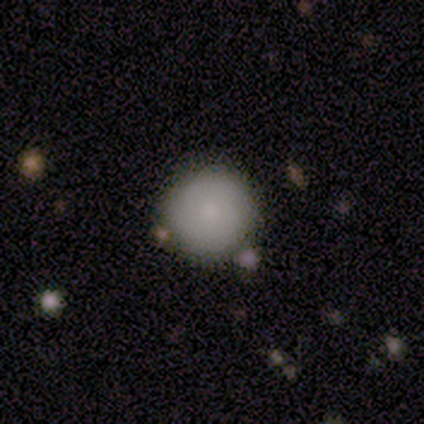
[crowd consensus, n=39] Smooth or featured: smooth — 77% (featured or disk — 13%)
How rounded: round — 100%
Merging: none — 89% (minor disturbance — 11%)